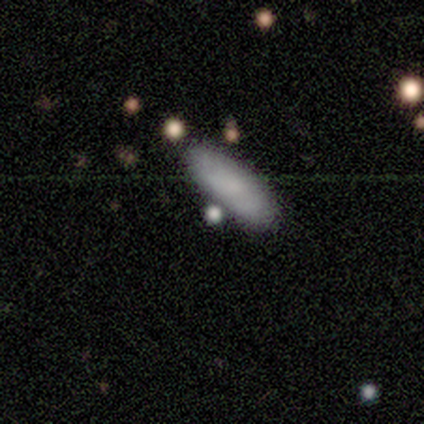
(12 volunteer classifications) Smooth or featured?
  - smooth: 67% *
  - featured or disk: 25%
  - star or artifact: 8%
How rounded?
  - in between: 50% * (tied)
  - cigar-shaped: 50% * (tied)
  - round: 0%
Merging?
  - none: 91% *
  - minor disturbance: 9%
  - major disturbance: 0%
  - merger: 0%